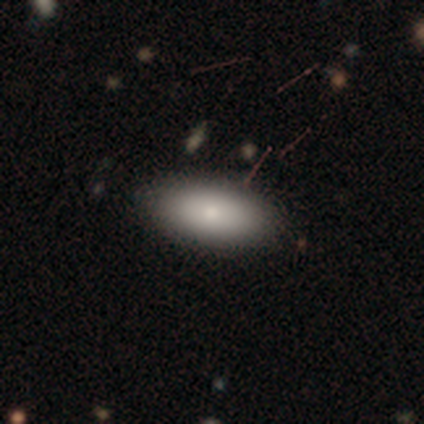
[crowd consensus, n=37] This appears to be a smooth galaxy with no disk features (92%) that is in between round and cigar-shaped (88%). Merging: none (89%).